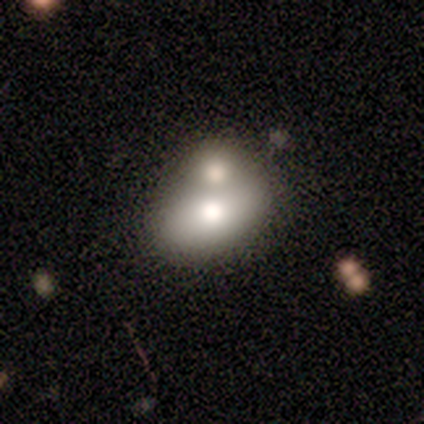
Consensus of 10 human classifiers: smooth-or-featured: smooth: 40% | featured or disk: 30% | star or artifact: 30%
  how-rounded: in between: 75% | round: 25% | cigar-shaped: 0%
  merging: merger: 71% | none: 14% | major disturbance: 14% | minor disturbance: 0%